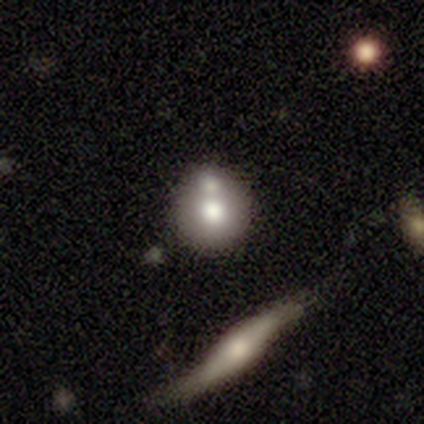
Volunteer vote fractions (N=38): smooth 58%, featured or disk 39%, star or artifact 3%. Down the decision tree: how rounded — round (95%); merging — merger (35%).